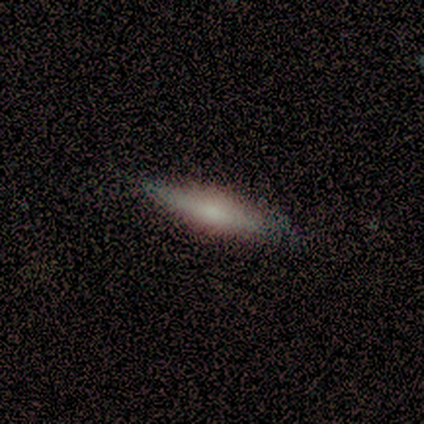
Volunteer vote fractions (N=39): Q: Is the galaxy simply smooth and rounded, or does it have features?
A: featured or disk — 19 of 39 (49%).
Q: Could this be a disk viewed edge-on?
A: yes — 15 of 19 (79%).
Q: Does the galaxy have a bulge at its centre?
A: rounded — 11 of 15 (73%).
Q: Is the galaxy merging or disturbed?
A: none — 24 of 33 (73%).